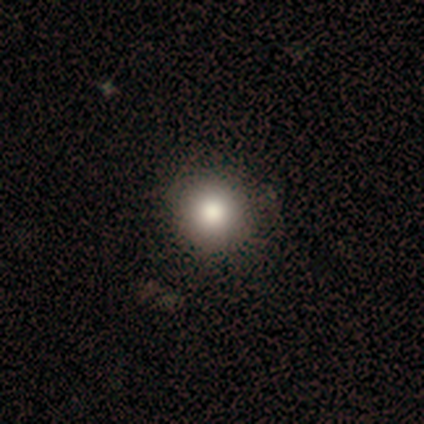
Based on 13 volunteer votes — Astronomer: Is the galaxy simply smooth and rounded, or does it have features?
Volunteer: smooth — 92%.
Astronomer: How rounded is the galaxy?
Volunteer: round — 92%.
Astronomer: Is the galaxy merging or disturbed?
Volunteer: none — 83%.